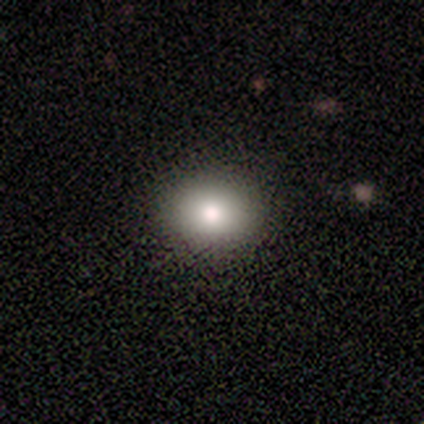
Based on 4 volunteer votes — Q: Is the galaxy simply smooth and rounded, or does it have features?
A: smooth — 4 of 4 (100%).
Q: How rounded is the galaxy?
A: in between — 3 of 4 (75%).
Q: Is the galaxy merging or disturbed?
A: none — 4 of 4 (100%).